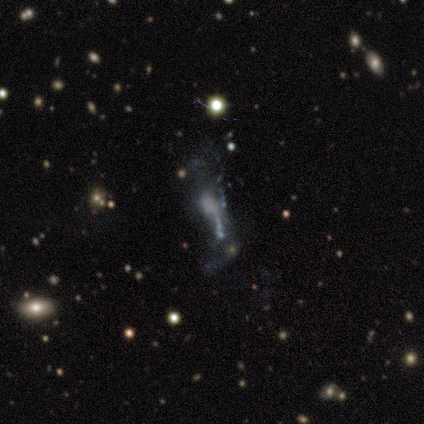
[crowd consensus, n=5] Smooth or featured: featured or disk — 60% (smooth — 20%)
Edge-on disk: no — 100%
Bar: no — 100%
Spiral arms: no — 100%
Bulge size: none — 67% (moderate — 33%)
Merging: minor disturbance — 50% (major disturbance — 25%)